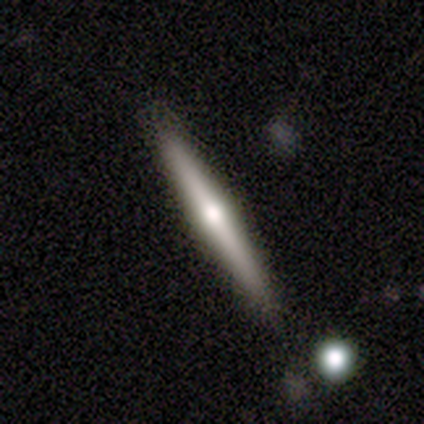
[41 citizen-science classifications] This is likely a featured or disk galaxy (73%). It is clearly viewed edge-on (93%). Edge-on bulge: clearly rounded (89%). Merging: clearly none (85%).